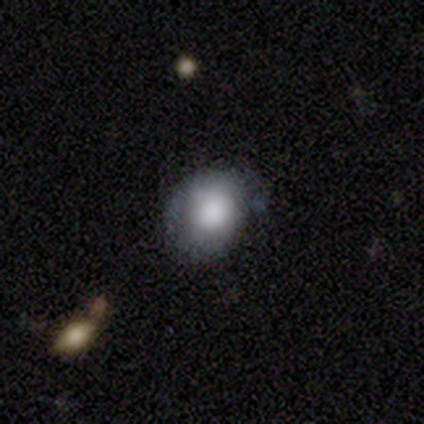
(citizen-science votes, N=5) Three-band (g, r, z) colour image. It shows a smooth galaxy with no disk features (80%) that is in between round and cigar-shaped (100%). Merging: none (75%).